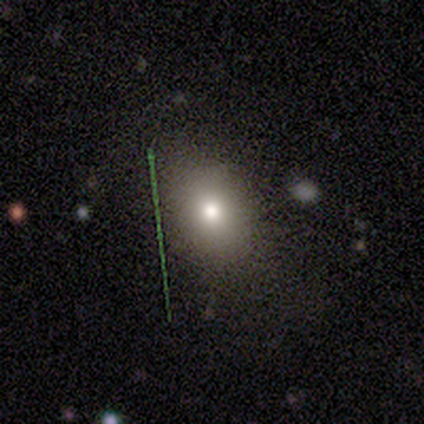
Smooth or featured? smooth (56%)
How rounded? in between (55%)
Merging? none (76%)